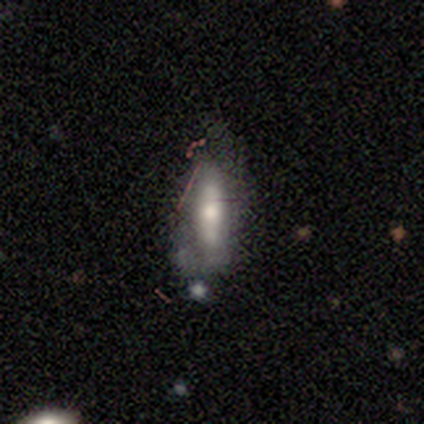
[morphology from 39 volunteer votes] This appears to be a smooth galaxy with no disk features (51%) that is cigar-shaped (50%). Merging: none (39%).